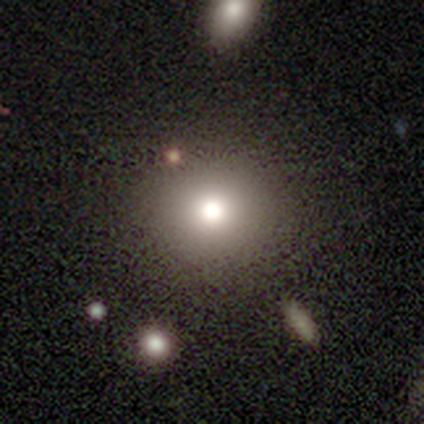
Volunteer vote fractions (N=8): smooth_or_featured: smooth (p=0.88) [alt: featured or disk p=0.12]
how_rounded: round (p=0.86) [alt: in between p=0.14]
merging: none (p=1.00)